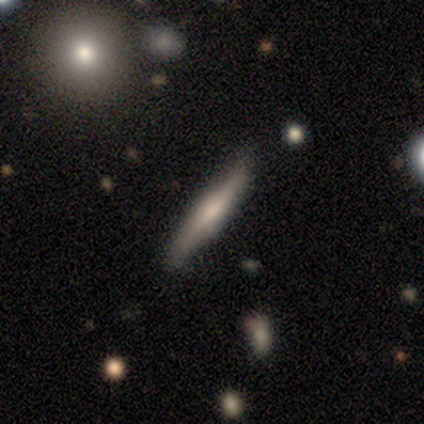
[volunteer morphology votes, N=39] Smooth or featured?
  - featured or disk: 54% *
  - smooth: 46%
  - star or artifact: 0%
Edge-on disk?
  - yes: 95% *
  - no: 5%
Edge-on bulge?
  - rounded: 60% *
  - none: 30%
  - boxy: 10%
Merging?
  - none: 72% *
  - minor disturbance: 26%
  - merger: 3%
  - major disturbance: 0%